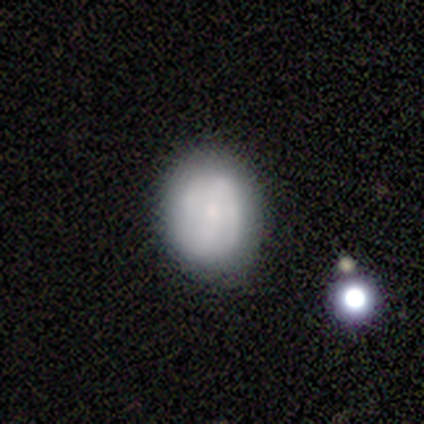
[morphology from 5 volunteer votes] This appears to be a smooth galaxy with no disk features (80%) that is round (100%). Merging: none (80%).